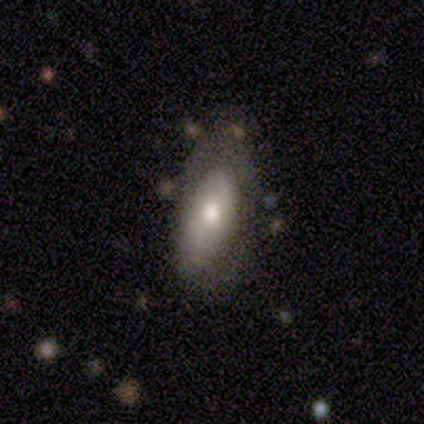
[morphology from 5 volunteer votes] Smooth or featured: featured or disk — 60% (smooth — 20%)
Edge-on disk: no — 100%
Bar: no — 67% (weak — 33%)
Spiral arms: no — 67% (yes — 33%)
Bulge size: moderate — 100%
Merging: none — 25% (tied with minor disturbance — 25%; major disturbance — 25%; merger — 25%)